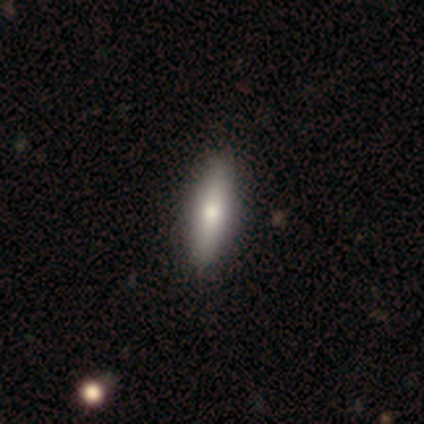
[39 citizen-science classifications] Morphology: type=smooth (74%); roundness=cigar-shaped (62%); merging=none (54%).